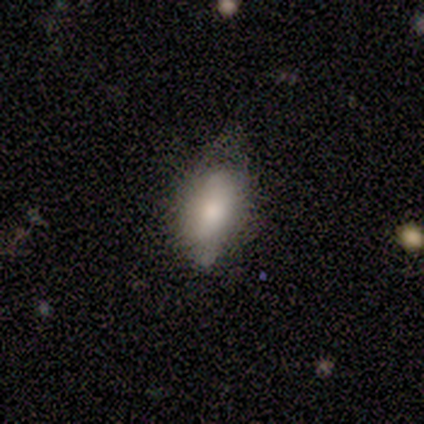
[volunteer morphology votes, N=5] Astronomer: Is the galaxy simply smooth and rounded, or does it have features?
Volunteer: smooth — 80%.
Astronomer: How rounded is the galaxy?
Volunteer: in between — 75%.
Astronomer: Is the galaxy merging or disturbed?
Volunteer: minor disturbance — 60% (runner-up: none, 40%).